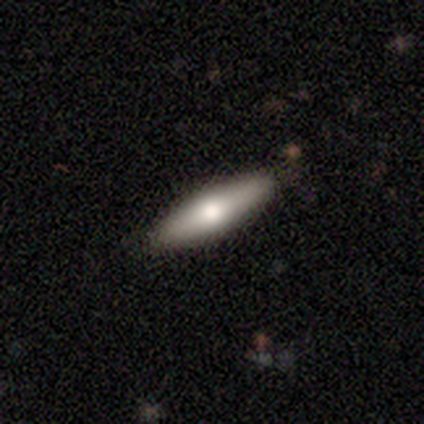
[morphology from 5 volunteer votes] Smooth or featured?
  - smooth: 60% *
  - featured or disk: 40%
  - star or artifact: 0%
How rounded?
  - cigar-shaped: 67% *
  - in between: 33%
  - round: 0%
Merging?
  - none: 60% *
  - minor disturbance: 20%
  - merger: 20%
  - major disturbance: 0%